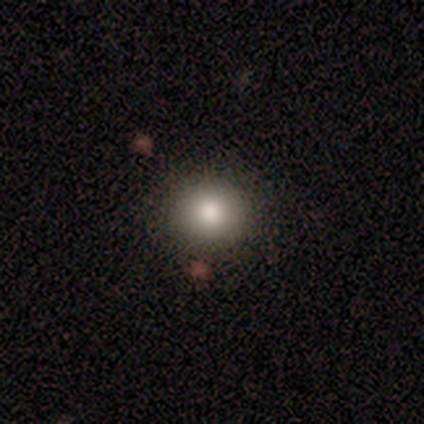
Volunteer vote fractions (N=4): Smooth or featured: smooth — 100%
How rounded: round — 100%
Merging: none — 100%